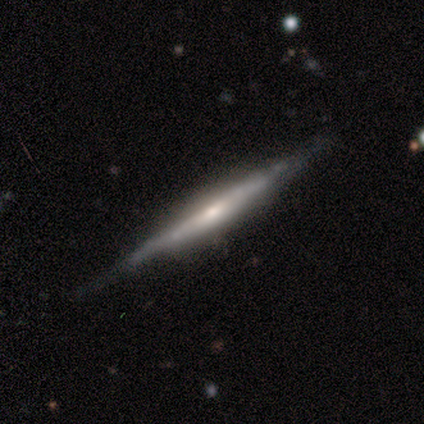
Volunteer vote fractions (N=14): smooth-or-featured: featured or disk: 79% | smooth: 14% | star or artifact: 7%
  disk-edge-on: yes: 100% | no: 0%
    edge-on-bulge: rounded: 73% | none: 18% | boxy: 9%
  merging: none: 92% | minor disturbance: 8% | major disturbance: 0% | merger: 0%